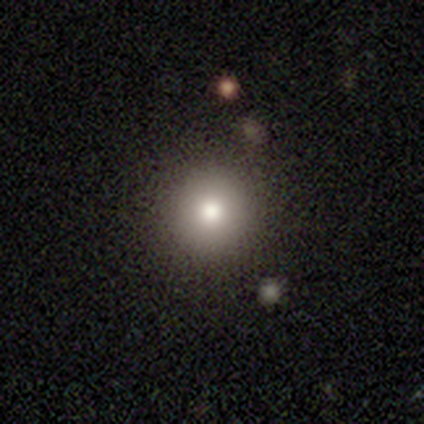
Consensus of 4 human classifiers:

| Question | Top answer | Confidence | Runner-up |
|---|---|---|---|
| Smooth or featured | smooth | 100% | — |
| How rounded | round | 100% | — |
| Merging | none | 100% | — |